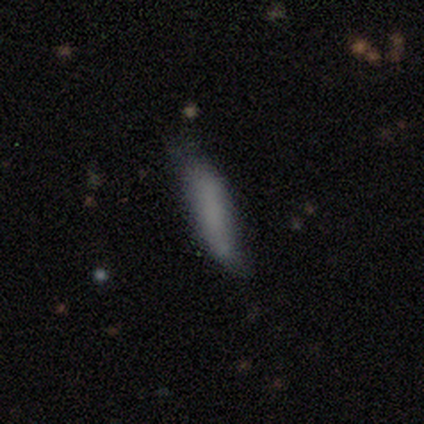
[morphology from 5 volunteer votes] smooth_or_featured: smooth (p=1.00)
how_rounded: cigar-shaped (p=1.00)
merging: minor disturbance (p=0.60) [alt: none p=0.20]